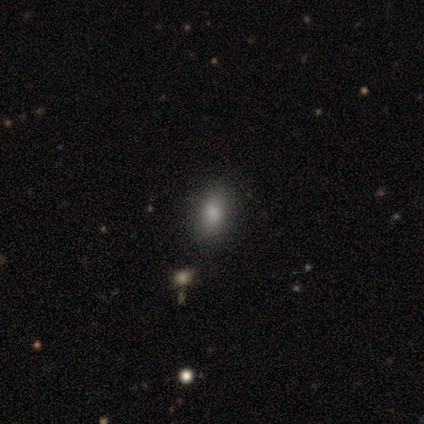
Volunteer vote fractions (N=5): Smooth or featured? 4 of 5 (80%) said smooth. How rounded? 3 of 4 (75%) said in between. Merging? 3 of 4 (75%) said none.